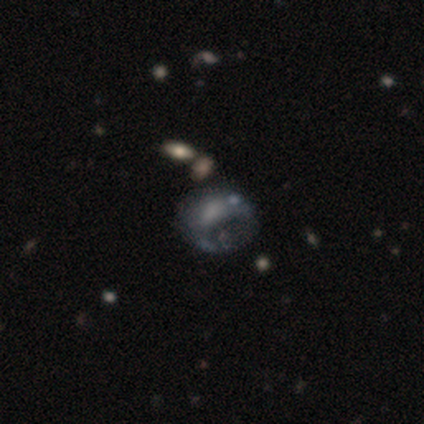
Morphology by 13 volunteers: Volunteers were most divided on "merging": major disturbance: 69%, none: 15%, minor disturbance: 8%, merger: 8%. More confident: edge-on disk — no (100%); smooth or featured — featured or disk (85%); bar — no (82%); spiral arms — no (82%); bulge size — none (82%).